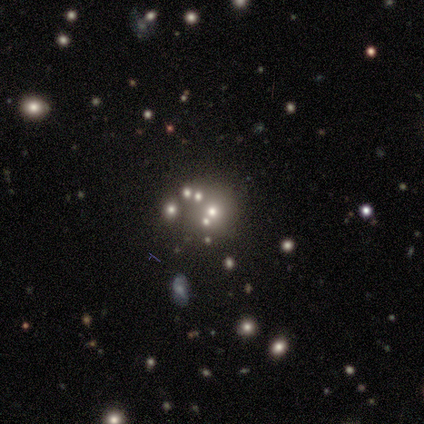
smooth_or_featured: smooth (p=0.60) [alt: star or artifact p=0.40]
how_rounded: round (p=1.00)
merging: minor disturbance (p=0.67) [alt: none p=0.33]